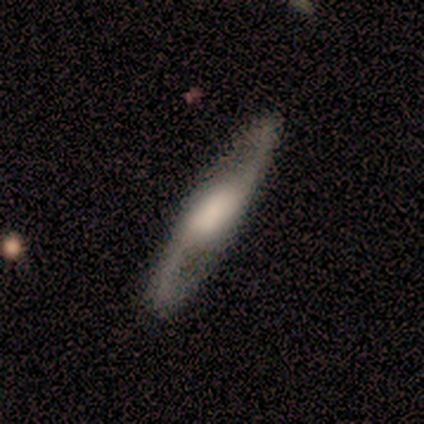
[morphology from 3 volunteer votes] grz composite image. It shows a featured or disk galaxy (67%) with a weak bar (50%, tied with no), 2 (100%) medium (50%, tied with loose) spiral arms (100%) and a large central bulge (50%, tied with none). Merging: none (100%).